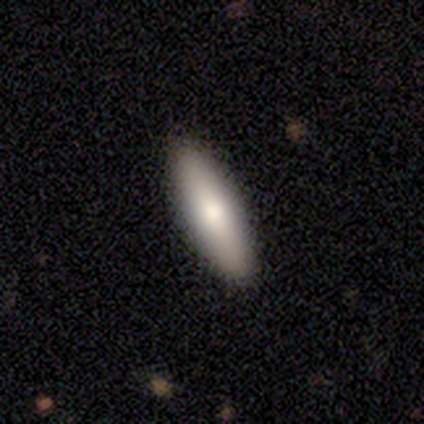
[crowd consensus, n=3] Morphology: type=smooth (100%); roundness=in between (67%); merging=none (100%).